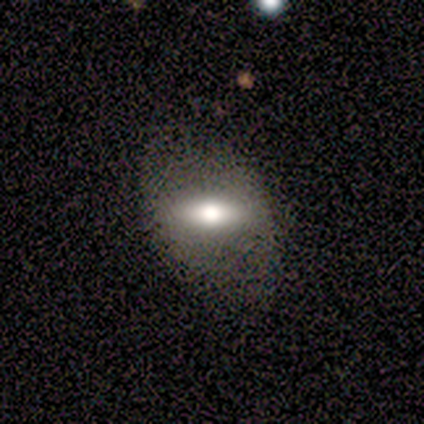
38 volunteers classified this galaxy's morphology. Volunteers were most divided on "smooth or featured": smooth: 63%, featured or disk: 32%, star or artifact: 5%. More confident: how rounded — in between (88%); merging — none (67%).